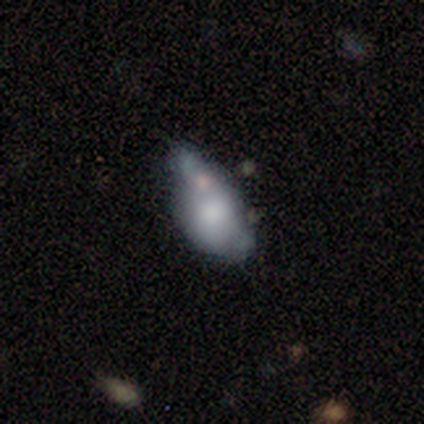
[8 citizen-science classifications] smooth 50%, featured or disk 25%, star or artifact 25%. Down the decision tree: how rounded — in between (75%); merging — minor disturbance (50%).